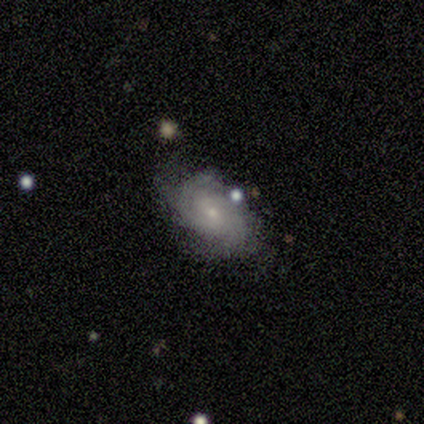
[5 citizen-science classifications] Q: Smooth or featured?
A: featured or disk (100%)
Q: Edge-on disk?
A: no (80%); runner-up: yes (20%)
Q: Bar?
A: weak (50%); tied with: no (50%)
Q: Spiral arms?
A: yes (100%)
Q: Spiral winding?
A: tight (75%); runner-up: medium (25%)
Q: Spiral arm count?
A: 2 (50%); tied with: can't tell (50%)
Q: Bulge size?
A: small (100%)
Q: Merging?
A: none (60%); runner-up: minor disturbance (40%)